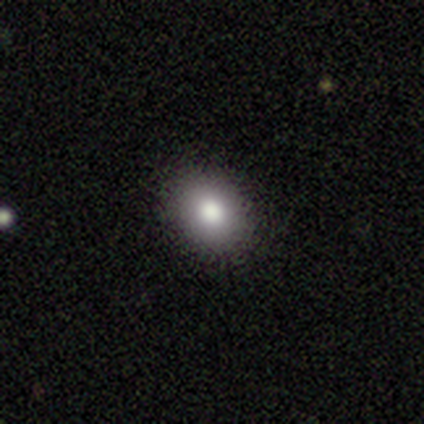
Smooth or featured: smooth — 100%
How rounded: round — 50% (tied with in between — 50%)
Merging: none — 100%